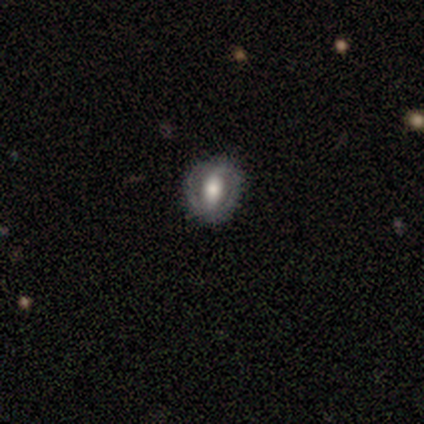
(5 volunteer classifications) Smooth or featured? 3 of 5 (60%) said featured or disk. Edge-on disk? 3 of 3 (100%) said no. Bar? 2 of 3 (67%) said strong. Spiral arms? 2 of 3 (67%) said no. Bulge size? 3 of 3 (100%) said large. Merging? 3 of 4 (75%) said none.